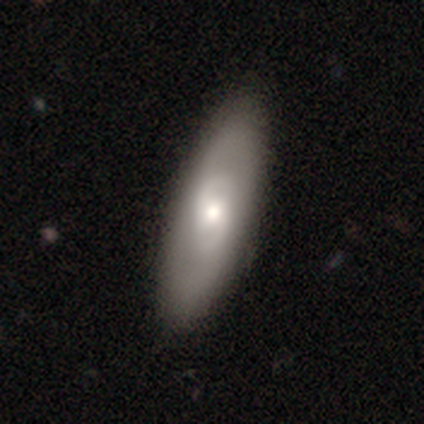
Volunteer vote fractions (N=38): smooth_or_featured: featured or disk (p=0.68) [alt: smooth p=0.32]
disk_edge_on: no (p=0.88) [alt: yes p=0.12]
bar: no (p=0.65) [alt: weak p=0.35]
has_spiral_arms: yes (p=0.65) [alt: no p=0.35]
spiral_winding: medium (p=0.47) [alt: tight p=0.27]
spiral_arm_count: 2 (p=0.93) [alt: can't tell p=0.07]
bulge_size: moderate (p=0.65) [alt: small p=0.22]
merging: none (p=0.63) [alt: minor disturbance p=0.08]